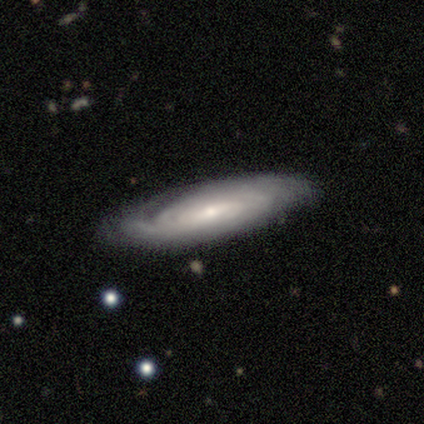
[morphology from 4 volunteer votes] Overall: featured or disk (100%). Edge-on disk: no (75%). Bar: no (67%; weak 33%). Spiral arms: yes (100%). Spiral arm count: can't tell (100%). Spiral winding: tight (100%). Bulge size: small (67%; moderate 33%). Merging: none (100%).